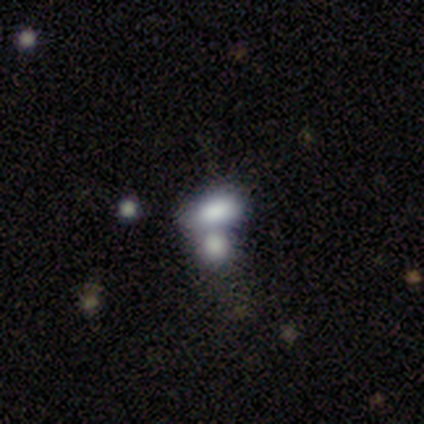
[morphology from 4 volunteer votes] This appears to be a smooth galaxy with no disk features (75%) that is in between round and cigar-shaped (100%). Merging: merger (67%).